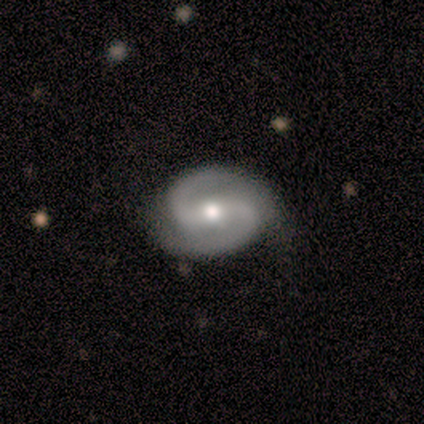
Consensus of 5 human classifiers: Smooth or featured? 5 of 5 (100%) said featured or disk. Edge-on disk? 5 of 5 (100%) said no. Bar? 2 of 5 (40%, tied with no) said weak. Spiral arms? 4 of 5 (80%) said yes. Spiral winding? 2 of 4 (50%, tied with medium) said tight. Spiral arm count? 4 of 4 (100%) said 2. Bulge size? 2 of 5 (40%, tied with small) said moderate. Merging? 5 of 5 (100%) said none.